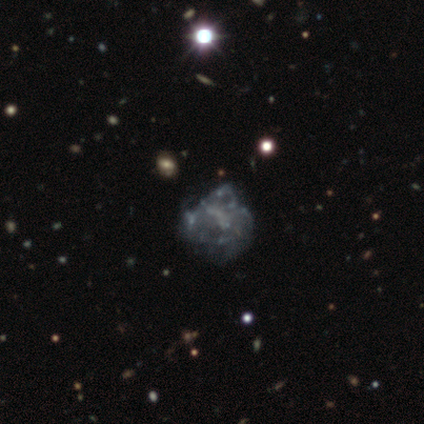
A featured or disk galaxy (76%) with no bar (93%), no spiral arms (92%) and no central bulge (89%). Merging: none (25%).